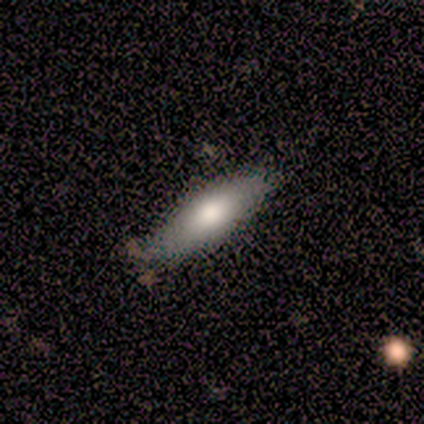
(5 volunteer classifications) A smooth galaxy with no disk features (100%) that is in between round and cigar-shaped (100%).

Vote fractions:
- Smooth or featured? smooth: 100% / featured or disk: 0% / star or artifact: 0%
- How rounded? in between: 100% / round: 0% / cigar-shaped: 0%
- Merging? none: 80% / minor disturbance: 20% / major disturbance: 0% / merger: 0%